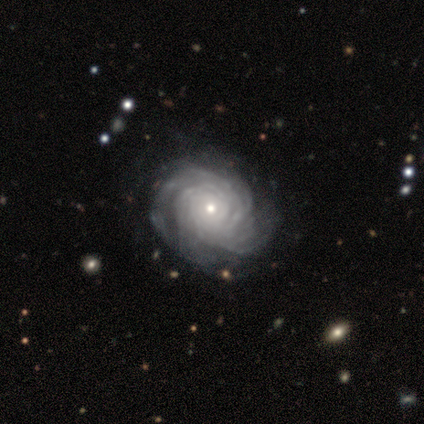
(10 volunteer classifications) Smooth or featured? featured or disk (80%)
Edge-on disk? no (100%)
Bar? no (75%)
Spiral arms? yes (88%)
Spiral winding? tight (100%)
Spiral arm count? more than 4 (71%)
Bulge size? small (75%)
Merging? none (70%)